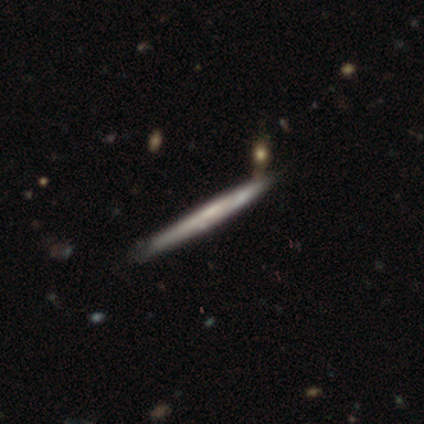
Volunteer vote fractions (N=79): A featured or disk galaxy (57%) viewed edge-on (93%) with no central bulge (79%). Merging: none (40%).